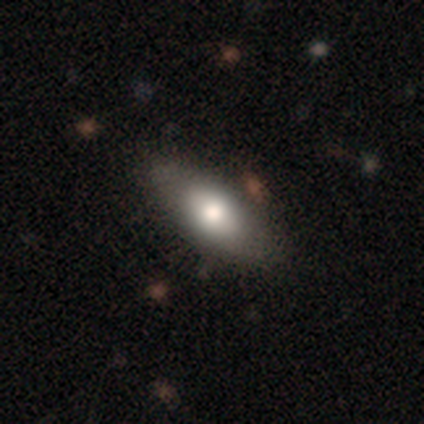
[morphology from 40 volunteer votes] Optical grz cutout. It shows a smooth galaxy with no disk features (65%) that is in between round and cigar-shaped (85%). Merging: none (67%).